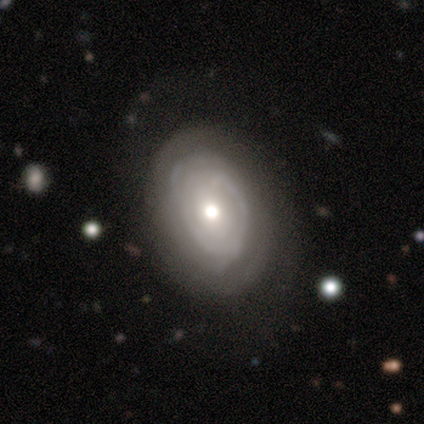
smooth-or-featured: featured or disk: 100% | smooth: 0% | star or artifact: 0%
  disk-edge-on: no: 100% | yes: 0%
    bar: no: 100% | strong: 0% | weak: 0%
    has-spiral-arms: yes: 100% | no: 0%
      spiral-winding: tight: 100% | medium: 0% | loose: 0%
      spiral-arm-count: can't tell: 80% | 2: 20% | 1: 0% | 3: 0% | 4: 0% | more than 4: 0%
    bulge-size: moderate: 80% | small: 20% | dominant: 0% | large: 0% | none: 0%
  merging: none: 100% | minor disturbance: 0% | major disturbance: 0% | merger: 0%